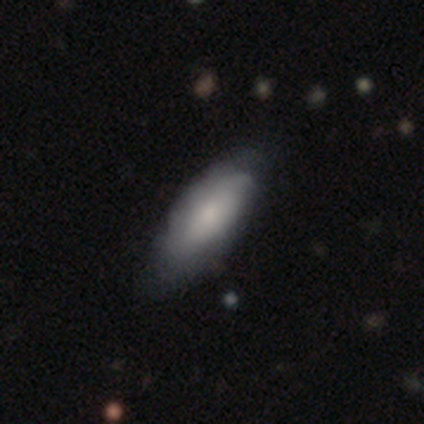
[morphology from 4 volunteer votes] Volunteers were most divided on "smooth or featured" (2-way tie): smooth: 50%, featured or disk: 50%, star or artifact: 0%. More confident: how rounded — in between (100%); merging — minor disturbance (50%).